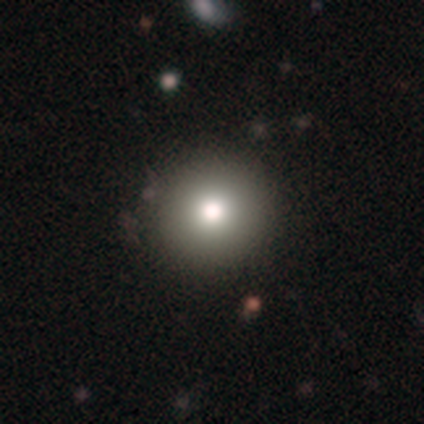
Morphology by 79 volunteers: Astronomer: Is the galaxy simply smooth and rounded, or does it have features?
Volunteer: smooth — 72%.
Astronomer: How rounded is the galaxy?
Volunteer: round — 96%.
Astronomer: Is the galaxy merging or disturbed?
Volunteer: none — 47%.